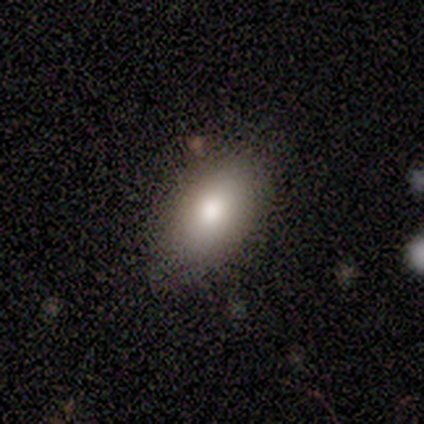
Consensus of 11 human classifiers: This appears to be a smooth galaxy with no disk features (100%) that is in between round and cigar-shaped (100%). Merging: none (73%).